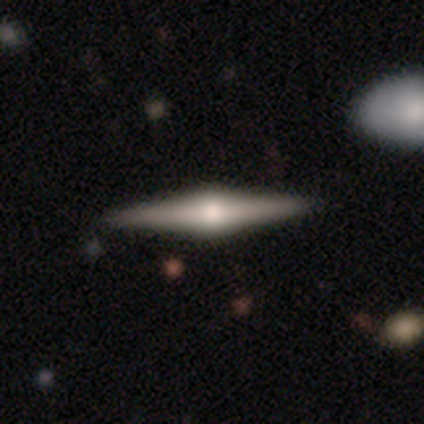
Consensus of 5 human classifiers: Volunteers were most divided on "smooth or featured" (2-way tie): smooth: 40%, featured or disk: 40%, star or artifact: 20%. More confident: how rounded — cigar-shaped (100%); merging — none (100%).